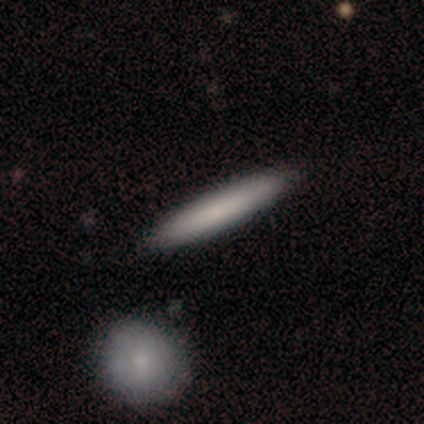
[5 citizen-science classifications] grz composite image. It shows a smooth galaxy with no disk features (100%) that is cigar-shaped (100%). Merging: none (80%).